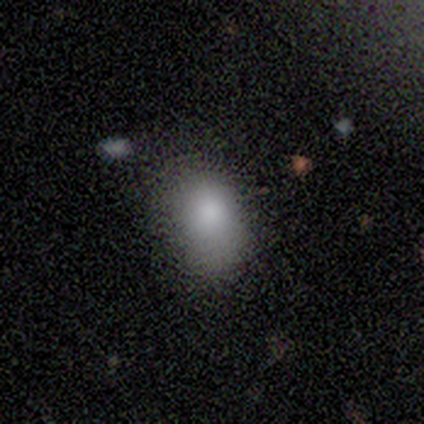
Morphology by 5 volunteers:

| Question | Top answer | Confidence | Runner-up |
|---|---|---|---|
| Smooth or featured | smooth | 80% | featured or disk (20%) |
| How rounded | in between | 100% | — |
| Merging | minor disturbance | 60% | none (40%) |